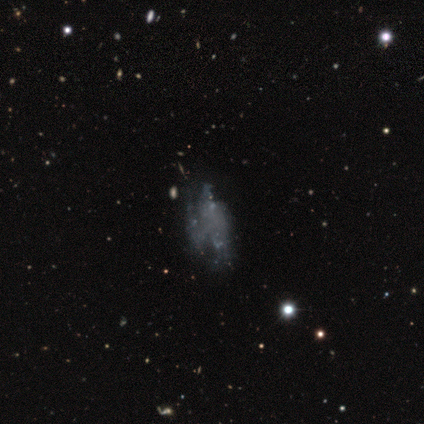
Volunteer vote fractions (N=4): smooth_or_featured: featured or disk (p=0.50) [alt: smooth p=0.25]
disk_edge_on: no (p=1.00)
bar: no (p=1.00)
has_spiral_arms: yes (p=0.50) [tied with: no p=0.50]
spiral_winding: loose (p=1.00)
spiral_arm_count: more than 4 (p=1.00)
bulge_size: none (p=1.00)
merging: major disturbance (p=0.67) [alt: none p=0.33]